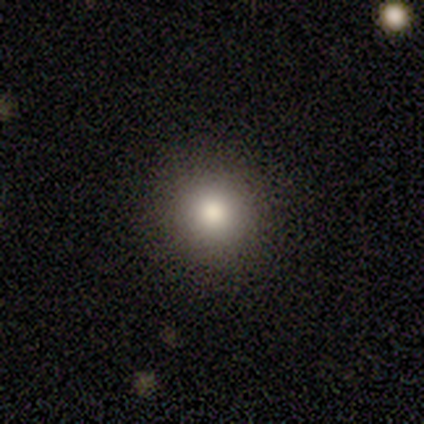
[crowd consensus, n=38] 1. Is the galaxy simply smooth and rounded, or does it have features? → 76% smooth, 16% featured or disk, 8% star or artifact.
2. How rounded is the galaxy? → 93% round, 3% in between, 3% cigar-shaped.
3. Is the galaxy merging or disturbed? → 94% none, 6% minor disturbance, 0% major disturbance, 0% merger.